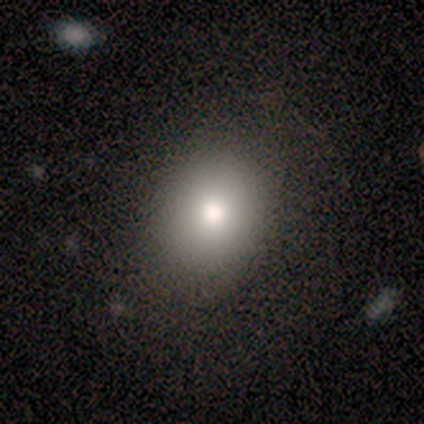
Smooth or featured? smooth (75%)
How rounded? in between (67%)
Merging? none (67%)